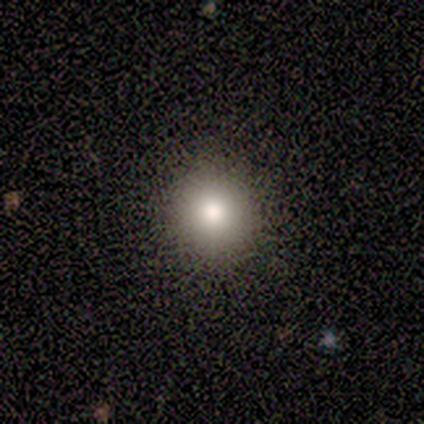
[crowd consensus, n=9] Smooth or featured: smooth — 78% (featured or disk — 11%)
How rounded: round — 86% (in between — 14%)
Merging: none — 100%